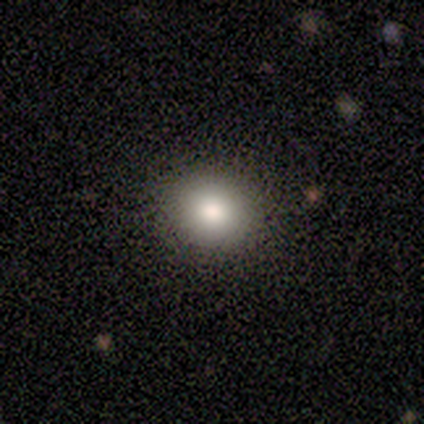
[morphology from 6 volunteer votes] smooth-or-featured: smooth: 83% | featured or disk: 17% | star or artifact: 0%
  how-rounded: round: 80% | in between: 20% | cigar-shaped: 0%
  merging: none: 100% | minor disturbance: 0% | major disturbance: 0% | merger: 0%